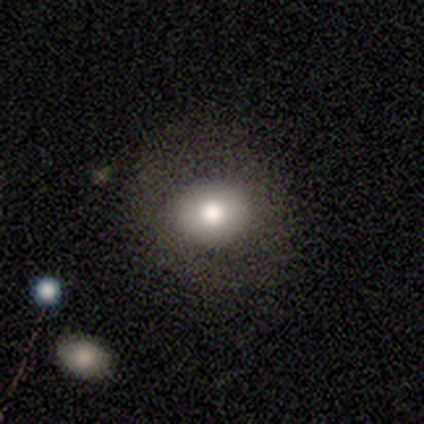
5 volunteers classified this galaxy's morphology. Overall: smooth (80%). How rounded: round (75%). Merging: none (100%).